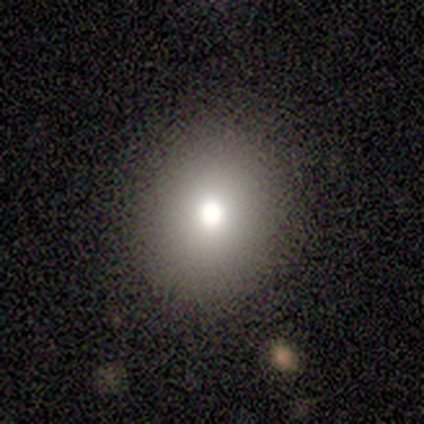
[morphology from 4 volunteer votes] Volunteers were most divided on "smooth or featured": smooth: 75%, star or artifact: 25%, featured or disk: 0%. More confident: how rounded — round (100%); merging — none (100%).